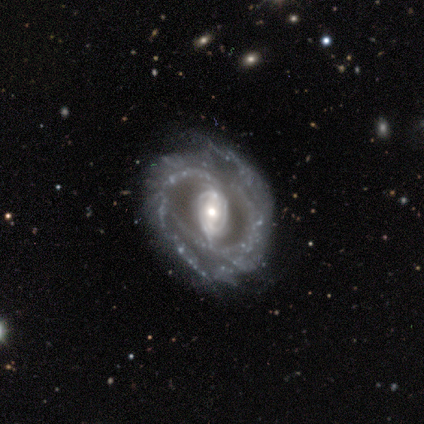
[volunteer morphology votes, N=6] smooth_or_featured: featured or disk (p=0.83) [alt: smooth p=0.17]
disk_edge_on: no (p=1.00)
bar: strong (p=0.40) [tied with: no p=0.40]
has_spiral_arms: yes (p=0.80) [alt: no p=0.20]
spiral_winding: tight (p=0.50) [tied with: loose p=0.50]
spiral_arm_count: 2 (p=0.25) [tied with: 3 p=0.25, more than 4 p=0.25, can't tell p=0.25]
bulge_size: moderate (p=0.80) [alt: small p=0.20]
merging: none (p=0.83) [alt: minor disturbance p=0.17]